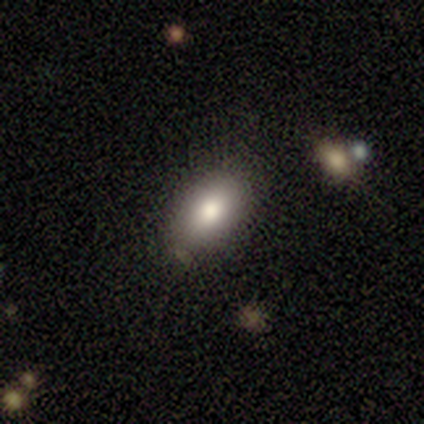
Overall: smooth (100%). How rounded: in between (80%). Merging: none (60%; minor disturbance 40%).